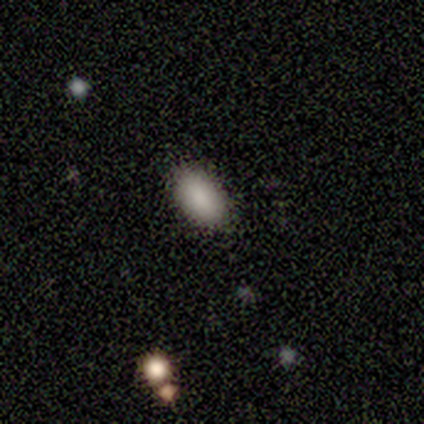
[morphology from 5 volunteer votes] Overall: smooth (80%). How rounded: in between (100%). Merging: none (75%).